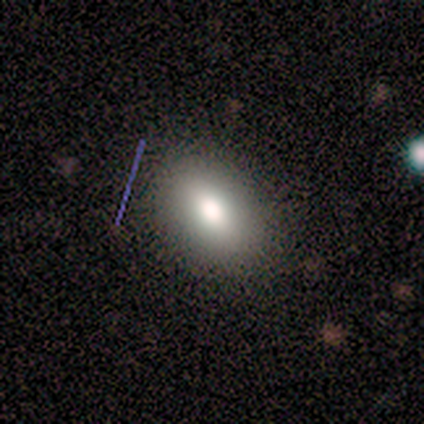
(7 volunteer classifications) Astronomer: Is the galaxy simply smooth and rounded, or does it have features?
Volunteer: smooth — 86%.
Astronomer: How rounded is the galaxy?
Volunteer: in between — 83%.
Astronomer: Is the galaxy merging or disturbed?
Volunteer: none — 71%.